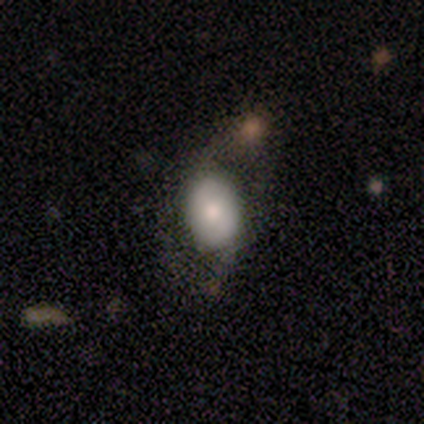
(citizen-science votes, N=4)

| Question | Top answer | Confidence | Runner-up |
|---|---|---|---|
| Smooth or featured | smooth | 100% | — |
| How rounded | in between | 75% | round (25%) |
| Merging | none | 100% | — |